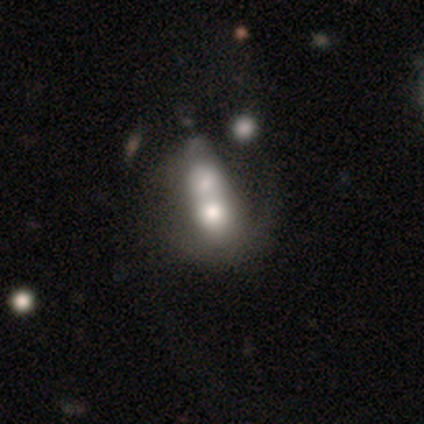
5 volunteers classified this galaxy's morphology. type=smooth (40%, tied with featured or disk); roundness=in between (50%, tied with cigar-shaped); merging=merger (75%).